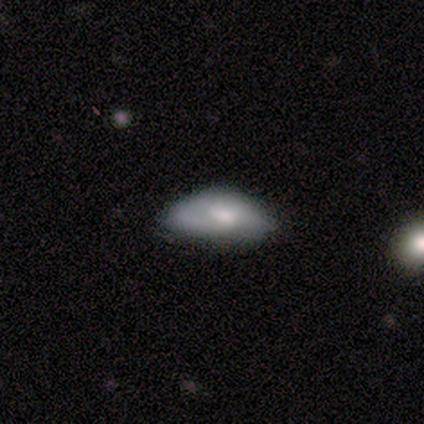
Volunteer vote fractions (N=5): This is clearly a smooth galaxy (80%). How rounded: likely in between (75%). Merging: likely none (60%).